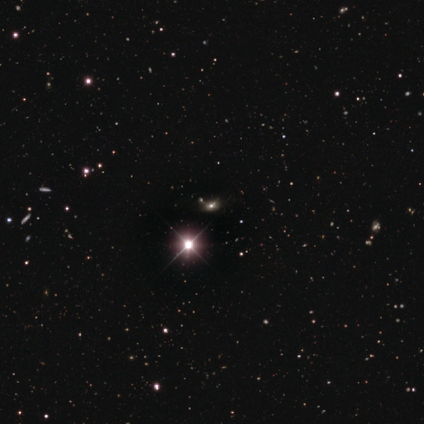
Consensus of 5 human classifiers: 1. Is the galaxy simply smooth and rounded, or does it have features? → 100% star or artifact, 0% smooth, 0% featured or disk.